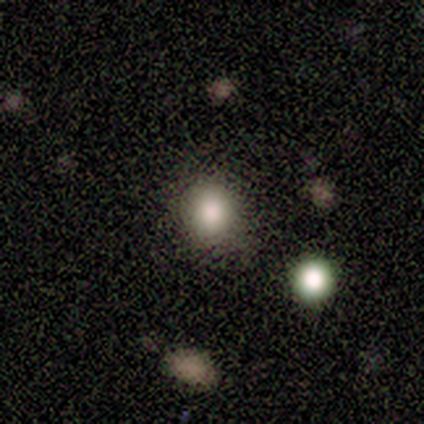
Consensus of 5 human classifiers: smooth_or_featured: smooth (p=0.80) [alt: featured or disk p=0.20]
how_rounded: round (p=0.75) [alt: in between p=0.25]
merging: none (p=0.80) [alt: minor disturbance p=0.20]